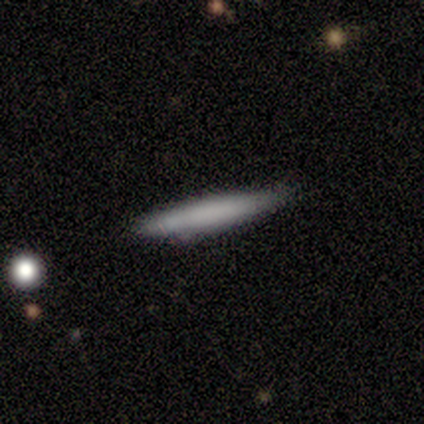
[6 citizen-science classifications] A smooth galaxy with no disk features (100%) that is cigar-shaped (83%).

Vote fractions:
- Smooth or featured? smooth: 100% / featured or disk: 0% / star or artifact: 0%
- How rounded? cigar-shaped: 83% / round: 17% / in between: 0%
- Merging? none: 100% / minor disturbance: 0% / major disturbance: 0% / merger: 0%